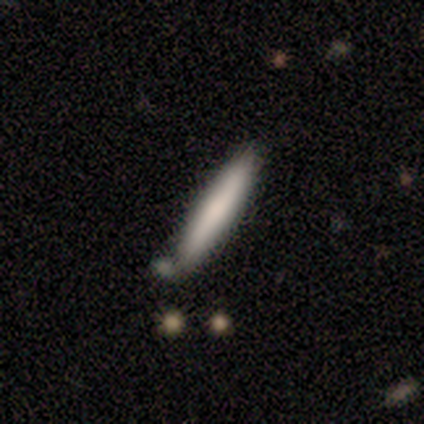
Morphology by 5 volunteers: Smooth or featured: smooth — 80% (featured or disk — 20%)
How rounded: cigar-shaped — 100%
Merging: none — 80% (minor disturbance — 20%)